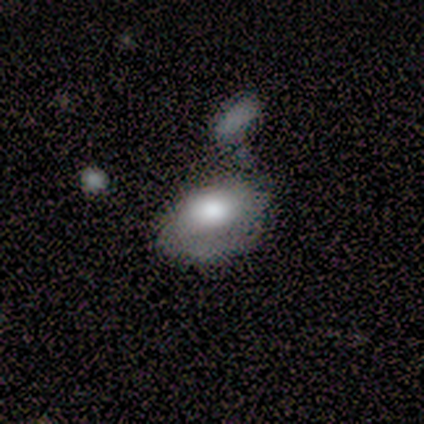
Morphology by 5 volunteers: smooth-or-featured: featured or disk: 80% | smooth: 20% | star or artifact: 0%
  disk-edge-on: no: 100% | yes: 0%
    bar: no: 100% | strong: 0% | weak: 0%
    has-spiral-arms: no: 75% | yes: 25%
    bulge-size: dominant: 50% | large: 25% | moderate: 25% | small: 0% | none: 0%
  merging: merger: 40% | none: 20% | minor disturbance: 20% | major disturbance: 20%